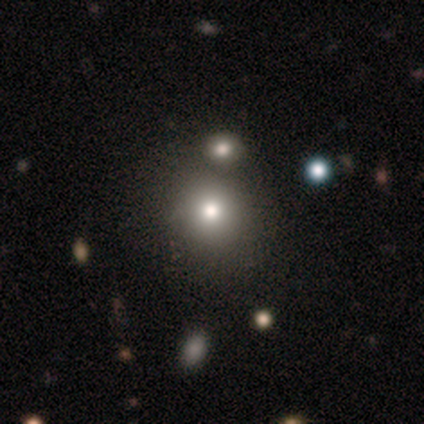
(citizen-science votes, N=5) Smooth or featured? smooth (80%)
How rounded? round (75%)
Merging? none (75%)